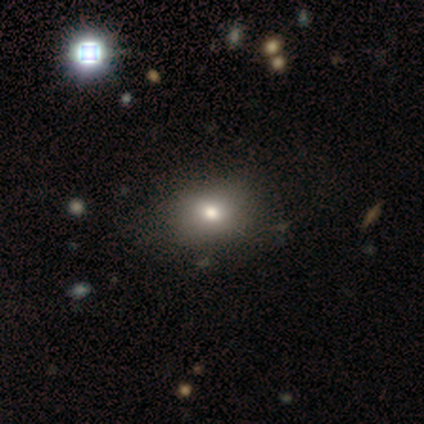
Smooth or featured? smooth (68%)
How rounded? in between (70%)
Merging? none (64%)